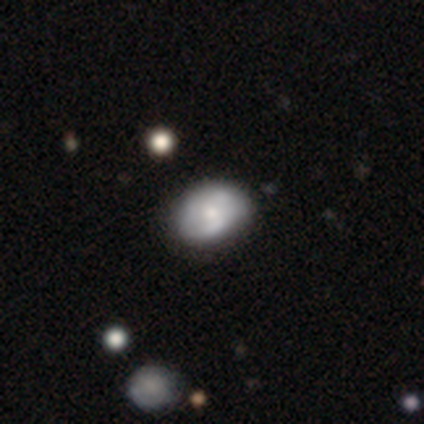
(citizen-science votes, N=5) smooth 60%, featured or disk 40%, star or artifact 0%. Down the decision tree: how rounded — in between (67%); merging — none (60%).